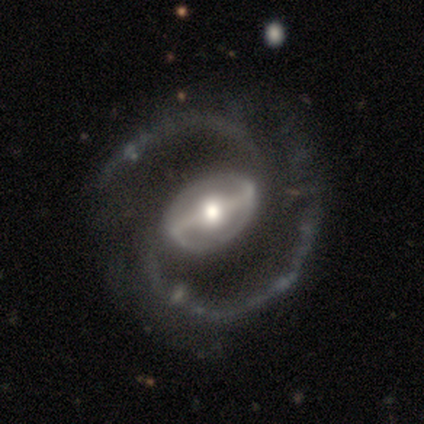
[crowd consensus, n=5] A featured or disk galaxy (80%) with a strong bar (100%), 2 (100%) medium (75%) spiral arms (100%) and a large central bulge (50%, tied with moderate).

Vote fractions:
- Smooth or featured? featured or disk: 80% / star or artifact: 20% / smooth: 0%
- Edge-on disk? no: 100% / yes: 0%
- Bar? strong: 100% / weak: 0% / no: 0%
- Spiral arms? yes: 100% / no: 0%
- Spiral winding? medium: 75% / loose: 25% / tight: 0%
- Spiral arm count? 2: 100% / 1: 0% / 3: 0% / 4: 0% / more than 4: 0% / can't tell: 0%
- Bulge size? large: 50% (tied) / moderate: 50% (tied) / dominant: 0% / small: 0% / none: 0%
- Merging? none: 75% / major disturbance: 25% / minor disturbance: 0% / merger: 0%